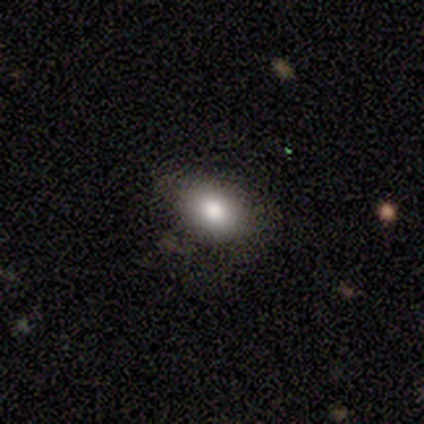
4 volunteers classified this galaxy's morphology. Smooth or featured: smooth — 75% (star or artifact — 25%)
How rounded: in between — 67% (round — 33%)
Merging: none — 100%